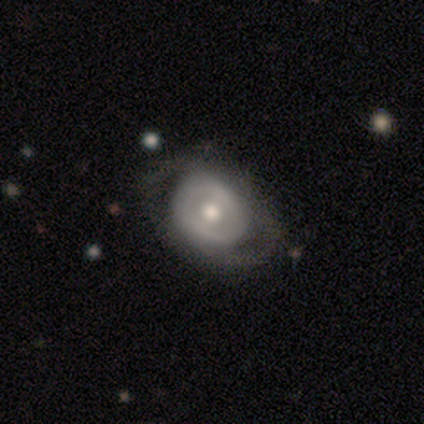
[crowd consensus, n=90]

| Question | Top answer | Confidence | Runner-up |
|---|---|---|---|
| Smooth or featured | featured or disk | 58% | smooth (36%) |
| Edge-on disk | no | 100% | — |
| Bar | no | 62% | weak (31%) |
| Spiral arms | no | 56% | yes (44%) |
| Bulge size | moderate | 69% | small (23%) |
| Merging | none | 49% | minor disturbance (29%) |